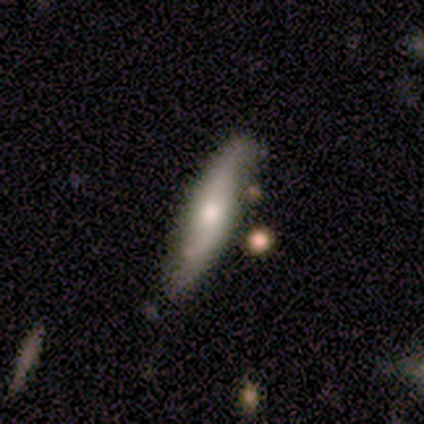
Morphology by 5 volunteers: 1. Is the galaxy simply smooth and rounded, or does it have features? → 60% featured or disk, 20% smooth, 20% star or artifact.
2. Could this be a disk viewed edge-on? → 67% no, 33% yes.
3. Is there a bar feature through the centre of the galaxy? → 50% weak (tied), 50% no (tied), 0% strong.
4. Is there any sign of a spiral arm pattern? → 100% yes, 0% no.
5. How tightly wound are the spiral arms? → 50% medium (tied), 50% loose (tied), 0% tight.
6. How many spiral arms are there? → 100% 2, 0% 1, 0% 3, 0% 4, 0% more than 4, 0% can't tell.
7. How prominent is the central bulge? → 50% moderate (tied), 50% small (tied), 0% dominant, 0% large, 0% none.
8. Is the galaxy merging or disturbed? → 100% none, 0% minor disturbance, 0% major disturbance, 0% merger.